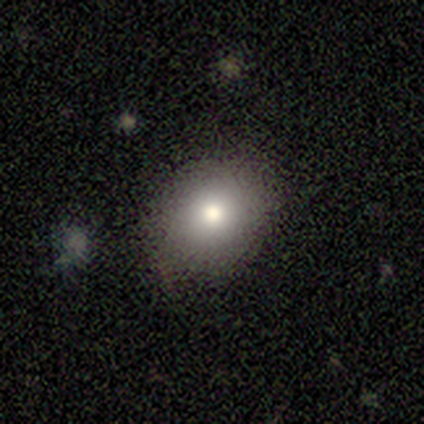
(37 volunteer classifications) Smooth or featured? smooth (78%)
How rounded? round (69%)
Merging? none (82%)